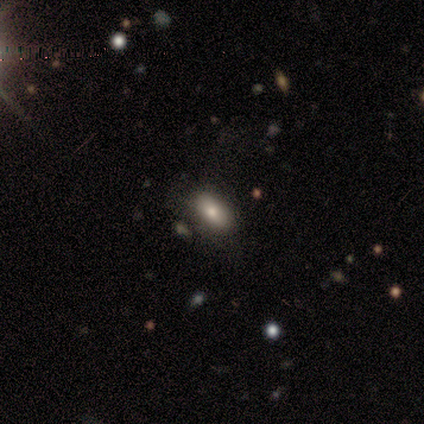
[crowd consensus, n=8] A smooth galaxy with no disk features (75%) that is in between round and cigar-shaped (100%).

Vote fractions:
- Smooth or featured? smooth: 75% / star or artifact: 25% / featured or disk: 0%
- How rounded? in between: 100% / round: 0% / cigar-shaped: 0%
- Merging? none: 83% / major disturbance: 17% / minor disturbance: 0% / merger: 0%